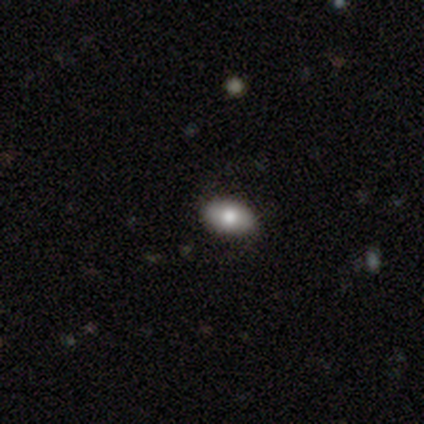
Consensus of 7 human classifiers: smooth-or-featured: smooth: 86% | featured or disk: 14% | star or artifact: 0%
  how-rounded: in between: 83% | round: 17% | cigar-shaped: 0%
  merging: none: 100% | minor disturbance: 0% | major disturbance: 0% | merger: 0%